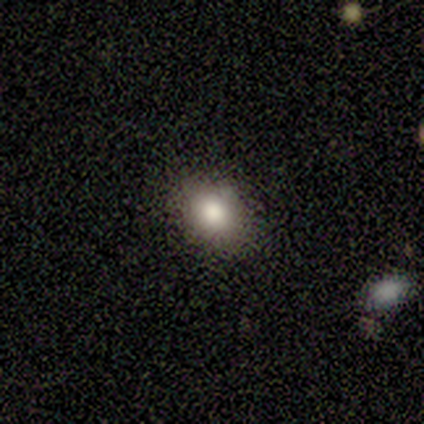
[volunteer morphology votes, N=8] Smooth or featured? 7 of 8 (88%) said smooth. How rounded? 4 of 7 (57%) said round. Merging? 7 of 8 (88%) said none.